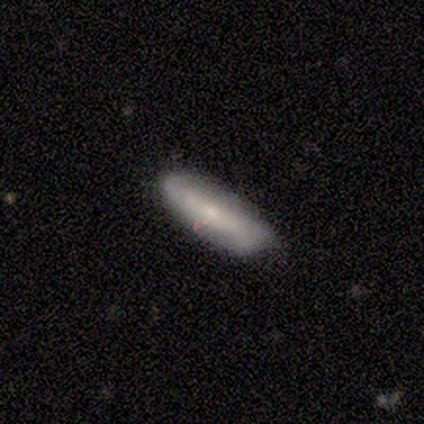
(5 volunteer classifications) smooth-or-featured: featured or disk: 60% | smooth: 40% | star or artifact: 0%
  disk-edge-on: no: 67% | yes: 33%
    bar: strong: 50% (tied) | no: 50% (tied) | weak: 0%
    has-spiral-arms: yes: 100% | no: 0%
      spiral-winding: loose: 100% | tight: 0% | medium: 0%
      spiral-arm-count: 2: 50% (tied) | 4: 50% (tied) | 1: 0% | 3: 0% | more than 4: 0% | can't tell: 0%
    bulge-size: small: 100% | dominant: 0% | large: 0% | moderate: 0% | none: 0%
  merging: none: 60% | minor disturbance: 40% | major disturbance: 0% | merger: 0%